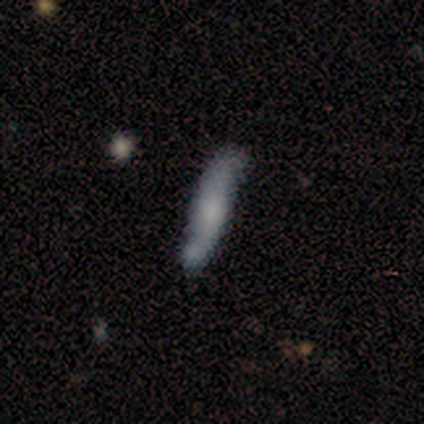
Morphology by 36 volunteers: smooth-or-featured: featured or disk: 50% | smooth: 44% | star or artifact: 6%
  disk-edge-on: yes: 50% (tied) | no: 50% (tied)
    edge-on-bulge: rounded: 67% | none: 33% | boxy: 0%
  merging: none: 71% | minor disturbance: 15% | merger: 9% | major disturbance: 6%